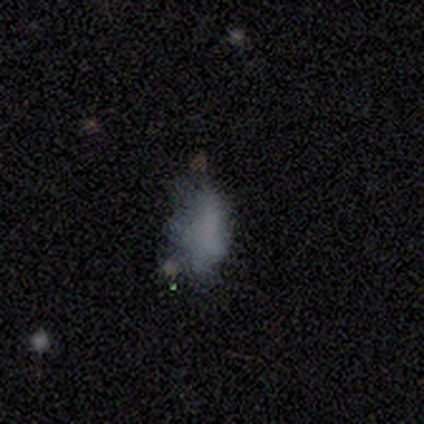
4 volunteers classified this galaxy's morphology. Smooth or featured?
  - featured or disk: 50% *
  - smooth: 25%
  - star or artifact: 25%
Edge-on disk?
  - no: 100% *
  - yes: 0%
Bar?
  - no: 100% *
  - strong: 0%
  - weak: 0%
Spiral arms?
  - no: 100% *
  - yes: 0%
Bulge size?
  - none: 100% *
  - dominant: 0%
  - large: 0%
  - moderate: 0%
  - small: 0%
Merging?
  - major disturbance: 67% *
  - none: 33%
  - minor disturbance: 0%
  - merger: 0%